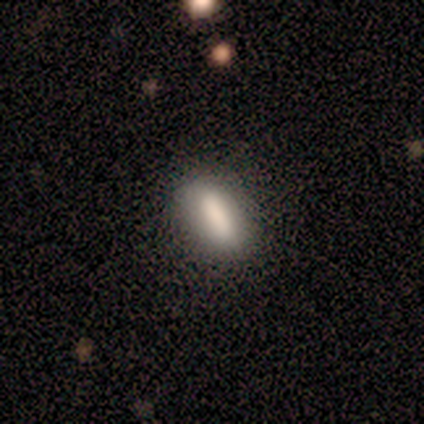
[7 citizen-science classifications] Smooth or featured? 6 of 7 (86%) said smooth. How rounded? 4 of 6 (67%) said in between. Merging? 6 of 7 (86%) said none.